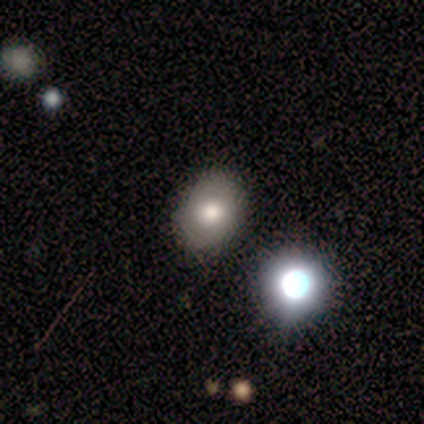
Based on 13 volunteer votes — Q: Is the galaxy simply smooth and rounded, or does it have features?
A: smooth — 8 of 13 (62%).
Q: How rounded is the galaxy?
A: round — 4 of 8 (50%, tied with in between).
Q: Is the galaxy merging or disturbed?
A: none — 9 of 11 (82%).